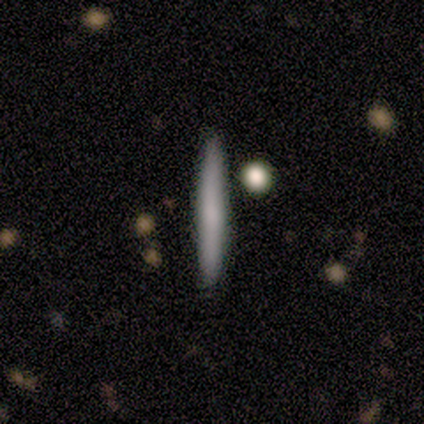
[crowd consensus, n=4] This is possibly a smooth galaxy (50%). How rounded: clearly cigar-shaped (100%). Merging: clearly none (100%).